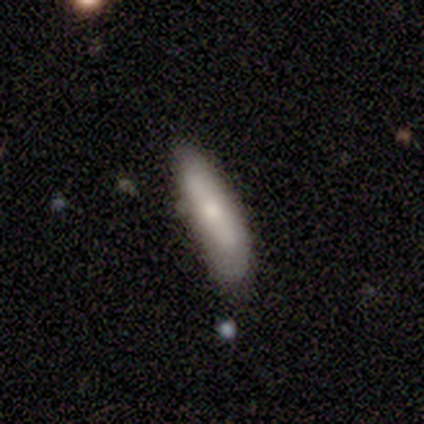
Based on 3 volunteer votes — Smooth or featured? smooth (67%)
How rounded? cigar-shaped (100%)
Merging? none (33%, tied with minor disturbance and major disturbance)